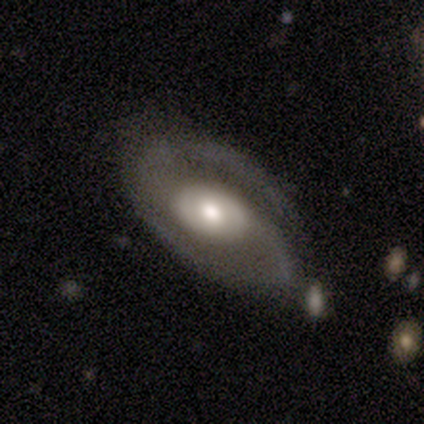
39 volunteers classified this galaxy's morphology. Volunteers were most divided on "spiral winding": medium: 58%, tight: 27%, loose: 15%. More confident: spiral arms — yes (97%); edge-on disk — no (94%); smooth or featured — featured or disk (92%); spiral arm count — 2 (91%); bulge size — moderate (68%); merging — none (66%); bar — no (62%).